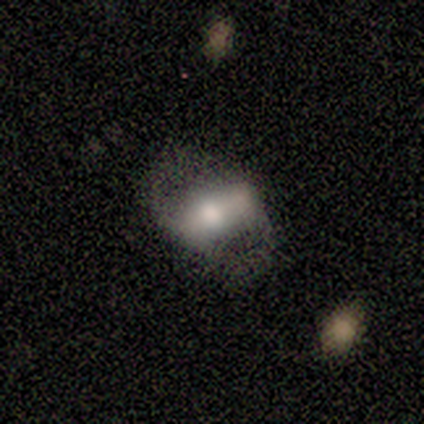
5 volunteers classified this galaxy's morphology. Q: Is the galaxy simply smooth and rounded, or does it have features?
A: featured or disk — 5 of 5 (100%).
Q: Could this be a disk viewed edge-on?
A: no — 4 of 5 (80%).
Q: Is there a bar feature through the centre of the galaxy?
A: weak — 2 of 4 (50%).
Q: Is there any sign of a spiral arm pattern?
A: yes — 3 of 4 (75%).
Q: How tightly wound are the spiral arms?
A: loose — 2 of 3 (67%).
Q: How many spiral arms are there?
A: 2 — 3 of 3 (100%).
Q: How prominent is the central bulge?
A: small — 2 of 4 (50%).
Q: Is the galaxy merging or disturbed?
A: none — 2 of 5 (40%).